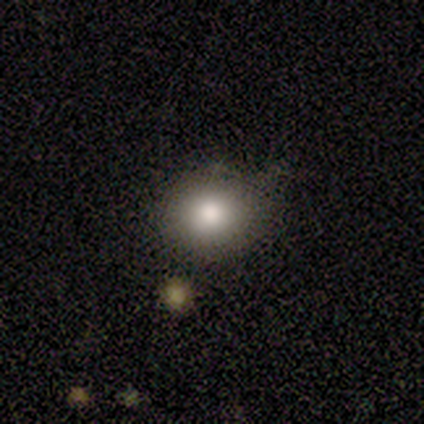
Smooth or featured: smooth — 67% (star or artifact — 33%)
How rounded: round — 75% (in between — 25%)
Merging: none — 75% (minor disturbance — 25%)